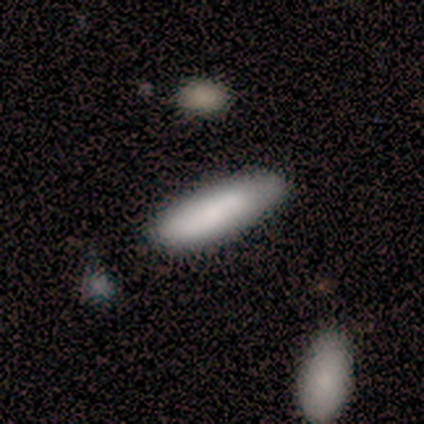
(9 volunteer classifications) Volunteers were most divided on "merging": none: 56%, minor disturbance: 44%, major disturbance: 0%, merger: 0%. More confident: smooth or featured — smooth (89%); how rounded — cigar-shaped (75%).